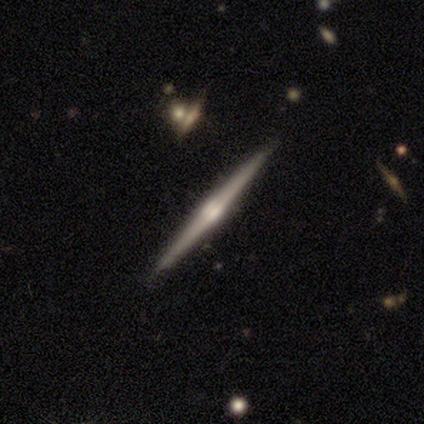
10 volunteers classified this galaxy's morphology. Smooth or featured?
  - featured or disk: 80% *
  - smooth: 20%
  - star or artifact: 0%
Edge-on disk?
  - yes: 100% *
  - no: 0%
Edge-on bulge?
  - rounded: 75% *
  - boxy: 12%
  - none: 12%
Merging?
  - none: 100% *
  - minor disturbance: 0%
  - major disturbance: 0%
  - merger: 0%